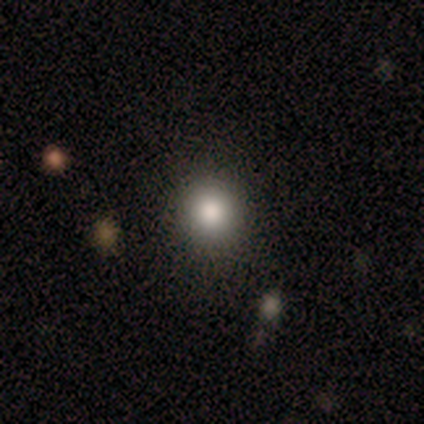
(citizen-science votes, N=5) smooth-or-featured: smooth: 60% | star or artifact: 40% | featured or disk: 0%
  how-rounded: round: 100% | in between: 0% | cigar-shaped: 0%
  merging: none: 100% | minor disturbance: 0% | major disturbance: 0% | merger: 0%